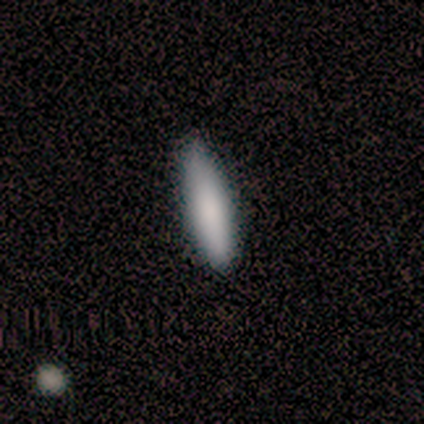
smooth_or_featured: smooth (p=1.00)
how_rounded: cigar-shaped (p=0.80) [alt: in between p=0.20]
merging: none (p=0.60) [alt: minor disturbance p=0.40]